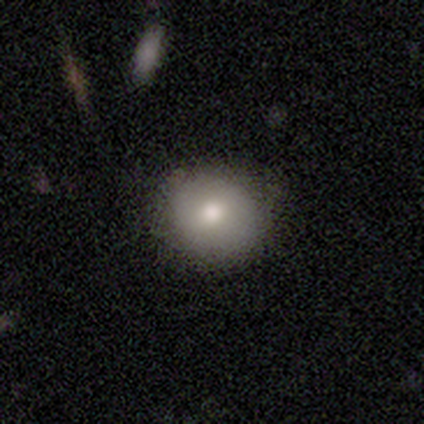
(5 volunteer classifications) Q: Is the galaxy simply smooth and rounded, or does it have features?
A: smooth — 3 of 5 (60%).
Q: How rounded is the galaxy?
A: round — 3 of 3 (100%).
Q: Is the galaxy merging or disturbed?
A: none — 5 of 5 (100%).